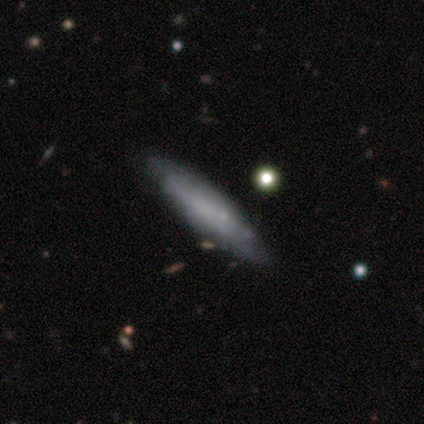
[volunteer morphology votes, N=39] Smooth or featured: smooth — 51% (featured or disk — 41%)
How rounded: cigar-shaped — 80% (in between — 20%)
Merging: none — 86% (minor disturbance — 14%)